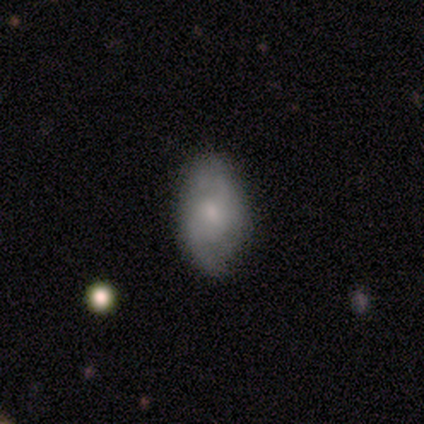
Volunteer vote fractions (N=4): Smooth or featured?
  - smooth: 50% * (tied)
  - featured or disk: 50% * (tied)
  - star or artifact: 0%
How rounded?
  - in between: 100% *
  - round: 0%
  - cigar-shaped: 0%
Merging?
  - none: 100% *
  - minor disturbance: 0%
  - major disturbance: 0%
  - merger: 0%